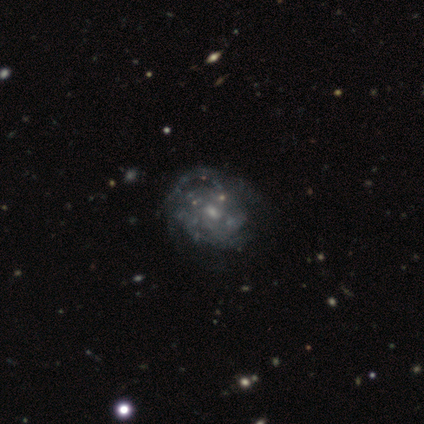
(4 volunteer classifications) smooth-or-featured: featured or disk: 100% | smooth: 0% | star or artifact: 0%
  disk-edge-on: no: 100% | yes: 0%
    bar: no: 75% | weak: 25% | strong: 0%
    has-spiral-arms: no: 75% | yes: 25%
    bulge-size: small: 50% | moderate: 25% | none: 25% | dominant: 0% | large: 0%
  merging: major disturbance: 50% | none: 25% | minor disturbance: 25% | merger: 0%